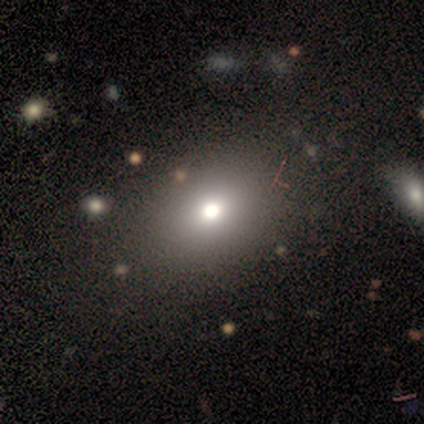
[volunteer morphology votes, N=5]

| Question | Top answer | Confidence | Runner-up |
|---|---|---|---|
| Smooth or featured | smooth | 40% | tied: star or artifact (40%) |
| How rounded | round | 100% | — |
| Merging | none | 67% | minor disturbance (33%) |